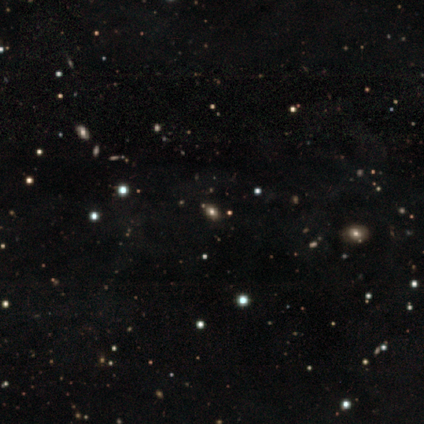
Smooth or featured? 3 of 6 (50%) said smooth. How rounded? 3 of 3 (100%) said in between. Merging? 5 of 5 (100%) said none.